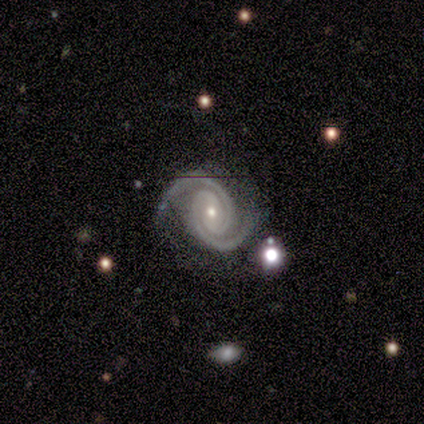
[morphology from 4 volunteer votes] Smooth or featured? 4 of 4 (100%) said featured or disk. Edge-on disk? 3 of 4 (75%) said no. Bar? 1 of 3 (33%, tied with weak and no) said strong. Spiral arms? 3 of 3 (100%) said yes. Spiral winding? 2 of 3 (67%) said medium. Spiral arm count? 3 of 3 (100%) said 2. Bulge size? 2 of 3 (67%) said small. Merging? 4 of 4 (100%) said none.